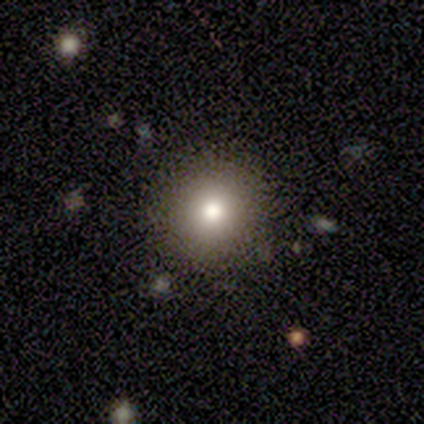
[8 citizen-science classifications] smooth 88%, star or artifact 12%, featured or disk 0%. Down the decision tree: how rounded — round (100%); merging — none (100%).